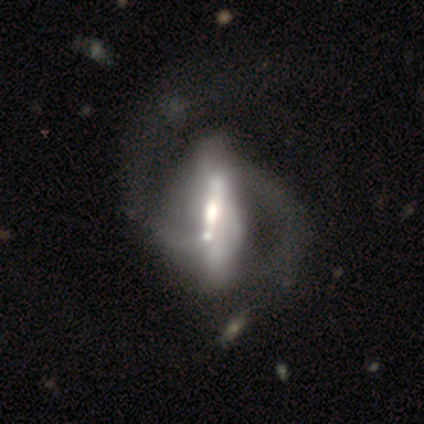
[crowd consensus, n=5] A featured or disk galaxy (100%) with a strong bar (60%), 2 (100%) medium (67%) spiral arms (60%) and a large central bulge (60%). Merging: none (60%).